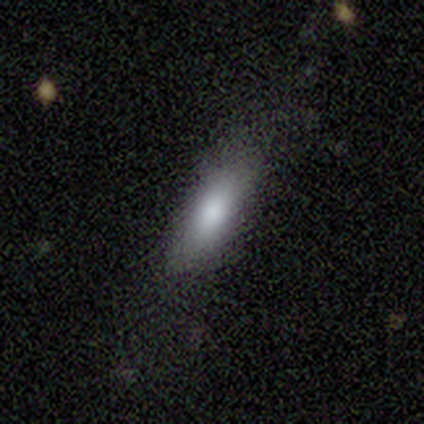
A smooth galaxy with no disk features (71%) that is in between round and cigar-shaped (60%).

Vote fractions:
- Smooth or featured? smooth: 71% / featured or disk: 19% / star or artifact: 10%
- How rounded? in between: 60% / cigar-shaped: 37% / round: 3%
- Merging? none: 63% / minor disturbance: 18% / major disturbance: 16% / merger: 3%